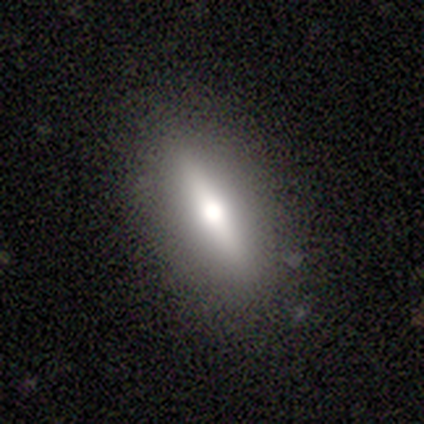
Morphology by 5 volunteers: smooth_or_featured: smooth (p=0.80) [alt: featured or disk p=0.20]
how_rounded: cigar-shaped (p=0.75) [alt: in between p=0.25]
merging: none (p=0.80) [alt: minor disturbance p=0.20]